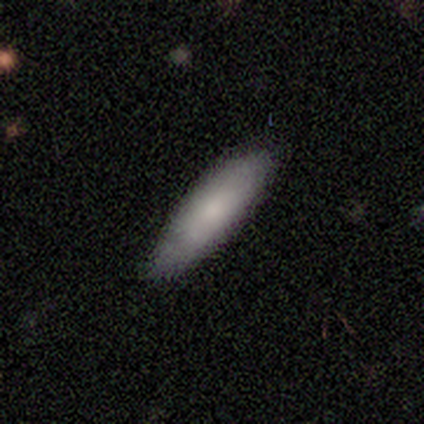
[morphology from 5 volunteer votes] This is clearly a smooth galaxy (100%). How rounded: clearly cigar-shaped (80%). Merging: clearly none (80%).